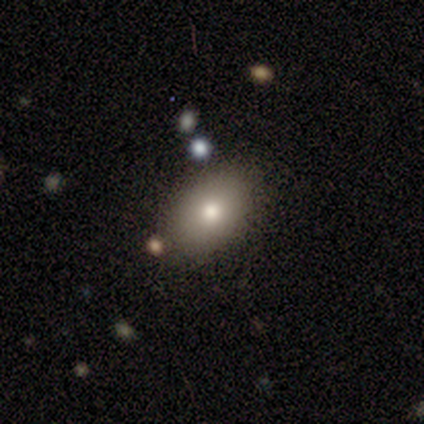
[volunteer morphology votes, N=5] type=smooth (80%); roundness=in between (100%); merging=none (100%).